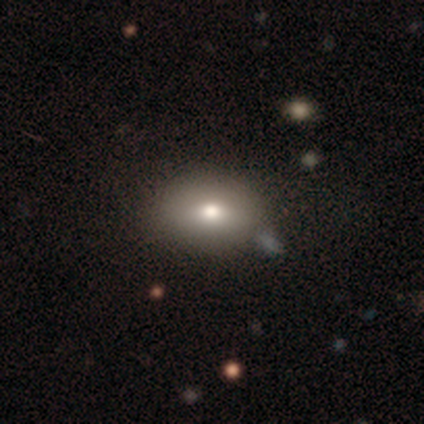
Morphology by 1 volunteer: Overall: smooth (100%). How rounded: in between (100%). Merging: none (100%).